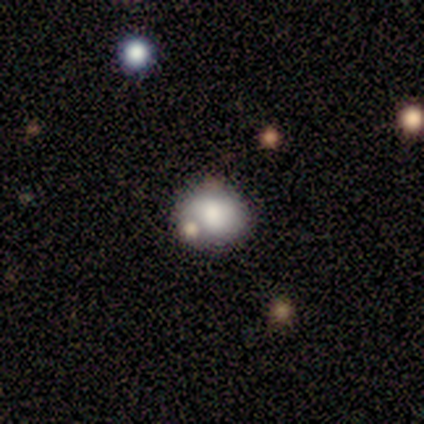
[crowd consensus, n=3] This appears to be a smooth galaxy with no disk features (67%) that is round (100%). Merging: minor disturbance (50%, tied with merger).